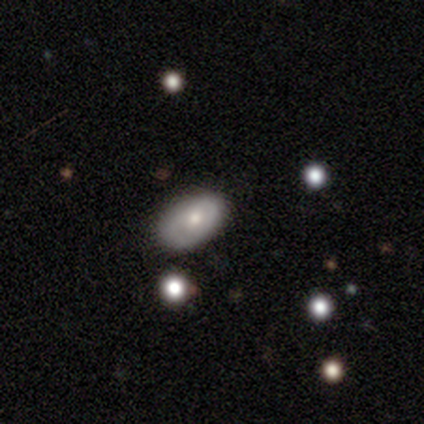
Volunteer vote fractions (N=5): A smooth galaxy with no disk features (80%) that is in between round and cigar-shaped (75%).

Vote fractions:
- Smooth or featured? smooth: 80% / featured or disk: 20% / star or artifact: 0%
- How rounded? in between: 75% / round: 25% / cigar-shaped: 0%
- Merging? none: 80% / merger: 20% / minor disturbance: 0% / major disturbance: 0%